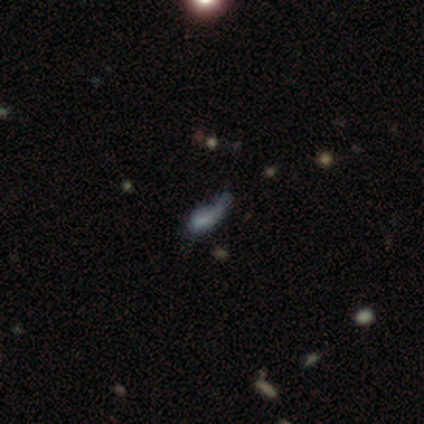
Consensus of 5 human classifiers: smooth-or-featured: smooth: 40% (tied) | star or artifact: 40% (tied) | featured or disk: 20%
  how-rounded: in between: 100% | round: 0% | cigar-shaped: 0%
  merging: minor disturbance: 67% | none: 33% | major disturbance: 0% | merger: 0%